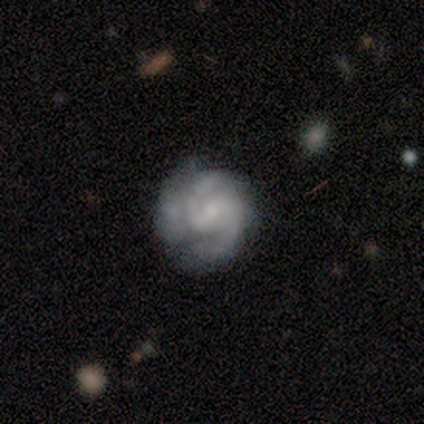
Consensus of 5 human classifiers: featured or disk 80%, smooth 20%, star or artifact 0%. Down the decision tree: edge-on disk — no (100%); bar — strong (75%); spiral arms — yes (50%, tied with no); spiral arm count — 2 (100%); spiral winding — medium (100%); bulge size — moderate (75%); merging — none (40%, tied with minor disturbance).